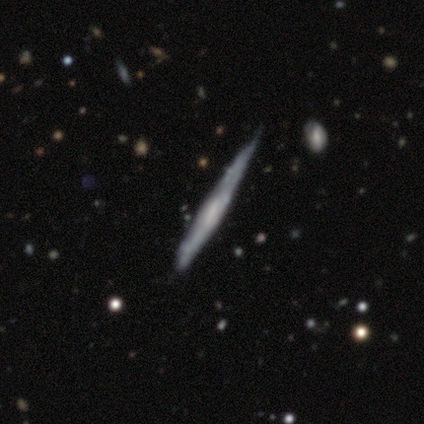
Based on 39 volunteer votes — Smooth or featured: featured or disk — 67% (smooth — 31%)
Edge-on disk: yes — 88% (no — 12%)
Edge-on bulge: none — 70% (rounded — 17%)
Merging: minor disturbance — 34% (none — 32%)